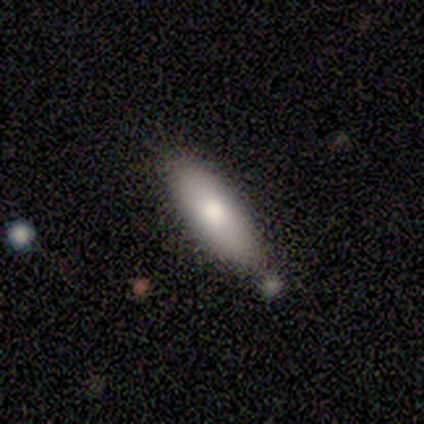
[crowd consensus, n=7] Smooth or featured? smooth (57%)
How rounded? in between (50%, tied with cigar-shaped)
Merging? none (57%)